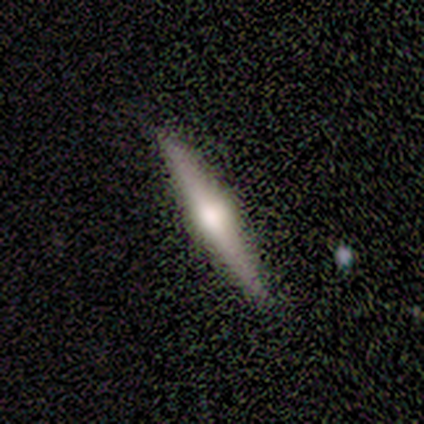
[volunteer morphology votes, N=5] A featured or disk galaxy (100%) viewed edge-on (100%) with a rounded central bulge (100%).

Vote fractions:
- Smooth or featured? featured or disk: 100% / smooth: 0% / star or artifact: 0%
- Edge-on disk? yes: 100% / no: 0%
- Edge-on bulge? rounded: 100% / boxy: 0% / none: 0%
- Merging? none: 80% / minor disturbance: 20% / major disturbance: 0% / merger: 0%